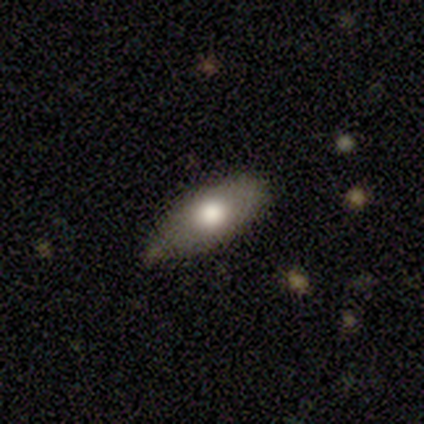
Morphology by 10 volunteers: smooth_or_featured: smooth (p=0.80) [alt: star or artifact p=0.20]
how_rounded: in between (p=1.00)
merging: none (p=0.62) [alt: minor disturbance p=0.38]